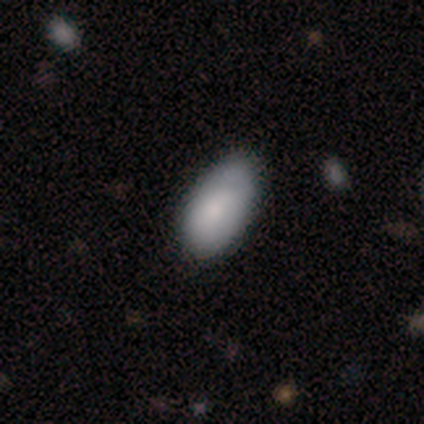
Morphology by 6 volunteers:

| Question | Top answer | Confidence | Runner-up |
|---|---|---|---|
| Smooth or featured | smooth | 83% | featured or disk (17%) |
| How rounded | in between | 100% | — |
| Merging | none | 83% | minor disturbance (17%) |